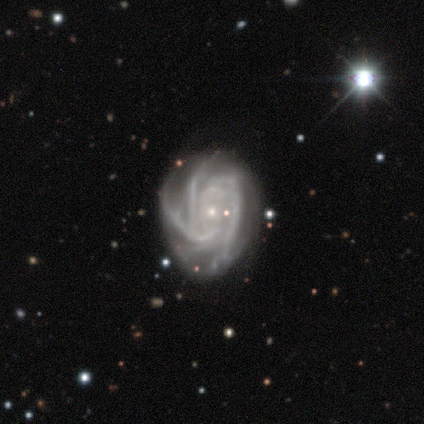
smooth-or-featured: featured or disk: 100% | smooth: 0% | star or artifact: 0%
  disk-edge-on: no: 100% | yes: 0%
    bar: strong: 40% (tied) | weak: 40% (tied) | no: 20%
    has-spiral-arms: yes: 100% | no: 0%
      spiral-winding: tight: 80% | loose: 20% | medium: 0%
      spiral-arm-count: 4: 40% (tied) | can't tell: 40% (tied) | 3: 20% | 1: 0% | 2: 0% | more than 4: 0%
    bulge-size: small: 100% | dominant: 0% | large: 0% | moderate: 0% | none: 0%
  merging: minor disturbance: 40% (tied) | major disturbance: 40% (tied) | none: 20% | merger: 0%